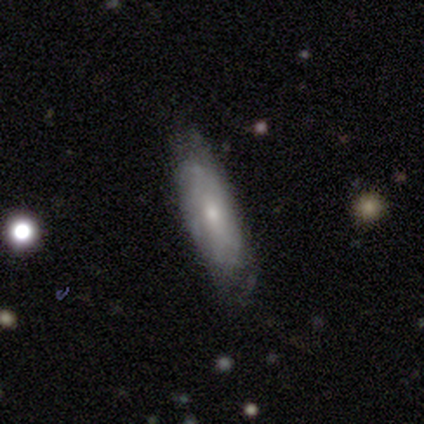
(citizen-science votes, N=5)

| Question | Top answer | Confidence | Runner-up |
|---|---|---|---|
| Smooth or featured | smooth | 60% | featured or disk (20%) |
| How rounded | cigar-shaped | 67% | in between (33%) |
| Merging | none | 100% | — |